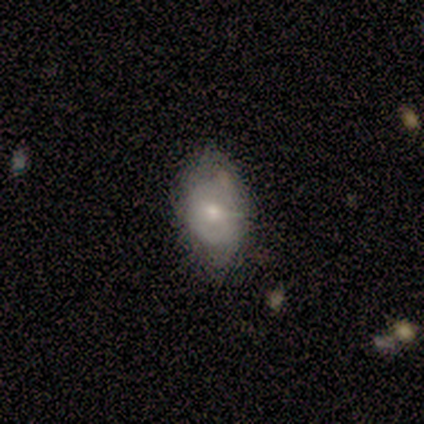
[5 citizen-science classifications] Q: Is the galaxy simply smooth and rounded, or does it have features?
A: featured or disk — 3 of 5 (60%).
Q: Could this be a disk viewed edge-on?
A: no — 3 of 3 (100%).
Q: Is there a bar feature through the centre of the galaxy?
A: no — 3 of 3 (100%).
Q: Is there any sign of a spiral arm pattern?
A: no — 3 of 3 (100%).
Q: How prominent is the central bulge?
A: small — 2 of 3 (67%).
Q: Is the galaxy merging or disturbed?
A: none — 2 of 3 (67%).